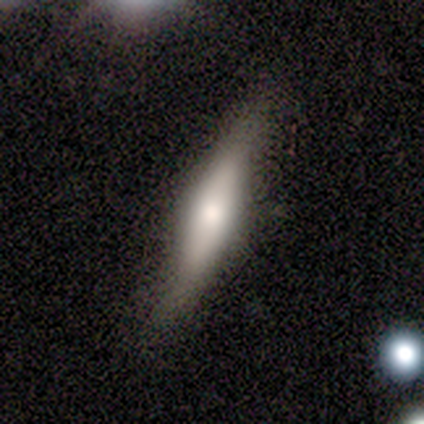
Volunteers were most divided on "edge-on disk": yes: 67%, no: 33%. More confident: edge-on bulge — rounded (100%); smooth or featured — featured or disk (75%); merging — minor disturbance (75%).